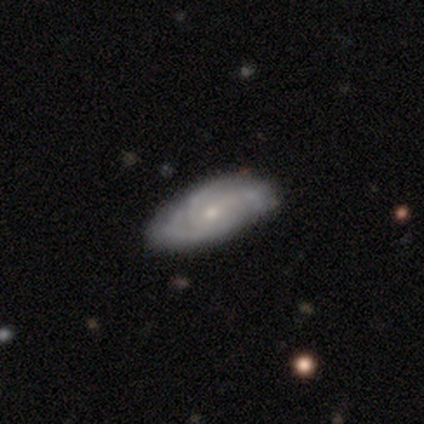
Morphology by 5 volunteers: Q: Smooth or featured?
A: featured or disk (60%); runner-up: smooth (20%)
Q: Edge-on disk?
A: no (100%)
Q: Bar?
A: no (100%)
Q: Spiral arms?
A: yes (100%)
Q: Spiral winding?
A: tight (67%); runner-up: medium (33%)
Q: Spiral arm count?
A: 3 (67%); runner-up: 4 (33%)
Q: Bulge size?
A: small (100%)
Q: Merging?
A: none (75%); runner-up: minor disturbance (25%)